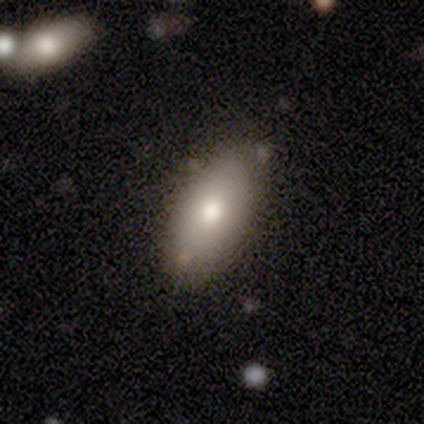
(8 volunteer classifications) A smooth galaxy with no disk features (62%) that is in between round and cigar-shaped (80%). Merging: none (62%).